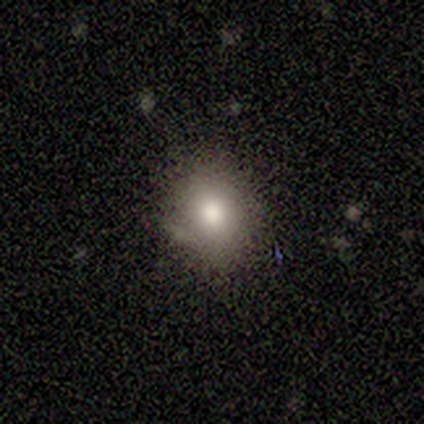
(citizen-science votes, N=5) Smooth or featured? smooth (100%)
How rounded? round (60%)
Merging? none (80%)